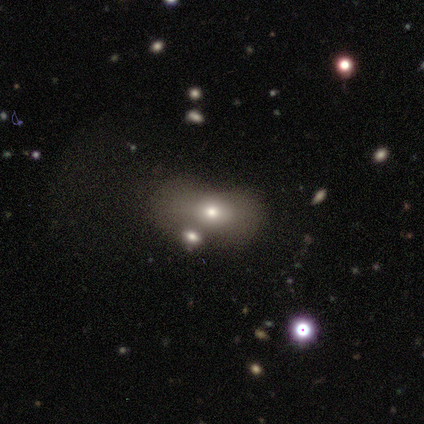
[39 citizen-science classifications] Overall: smooth (72%). How rounded: in between (100%). Merging: none (49%; merger 23%).